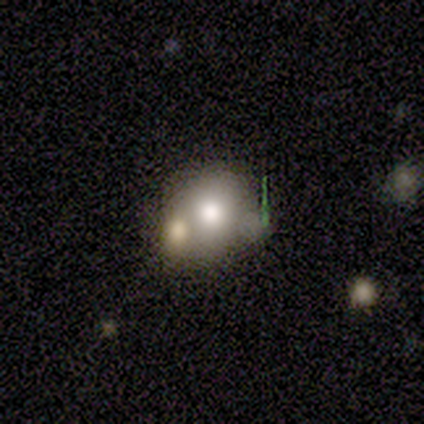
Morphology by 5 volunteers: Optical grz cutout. It shows a smooth galaxy with no disk features (80%) that is round (75%). Merging: none (40%, tied with major disturbance).